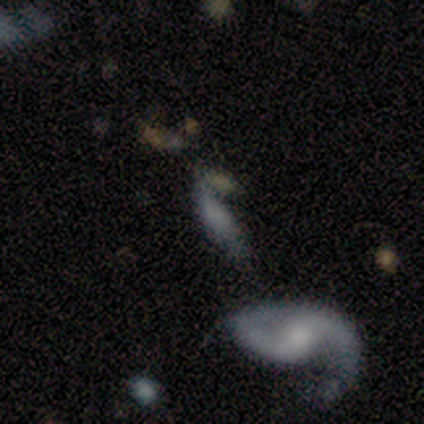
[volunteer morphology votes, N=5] Volunteers were most divided on "spiral arms" (2-way tie): yes: 50%, no: 50%; "bulge size" (2-way tie): small: 50%, none: 50%, dominant: 0%, large: 0%, moderate: 0%; "merging" (2-way tie): minor disturbance: 40%, major disturbance: 40%, none: 20%, merger: 0%. More confident: bar — no (100%); spiral winding — loose (100%); spiral arm count — 2 (100%); edge-on disk — no (67%); smooth or featured — featured or disk (60%).